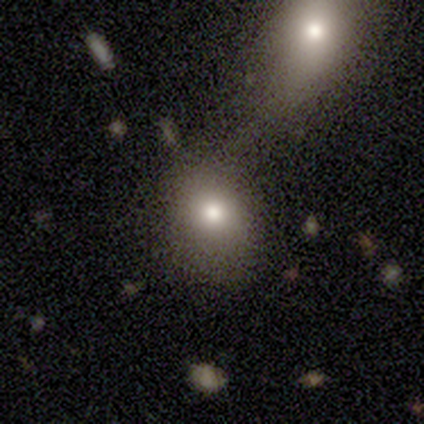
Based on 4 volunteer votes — Smooth or featured? smooth (100%)
How rounded? in between (100%)
Merging? merger (50%)